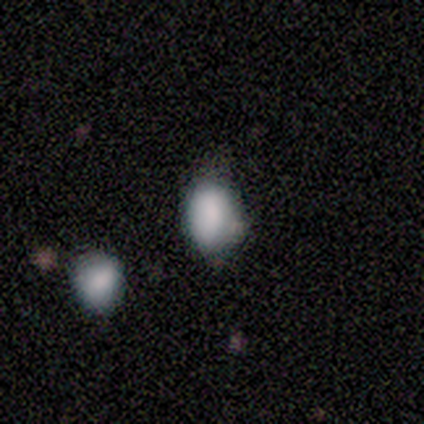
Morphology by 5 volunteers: smooth-or-featured: smooth: 60% | star or artifact: 40% | featured or disk: 0%
  how-rounded: in between: 67% | round: 33% | cigar-shaped: 0%
  merging: none: 100% | minor disturbance: 0% | major disturbance: 0% | merger: 0%